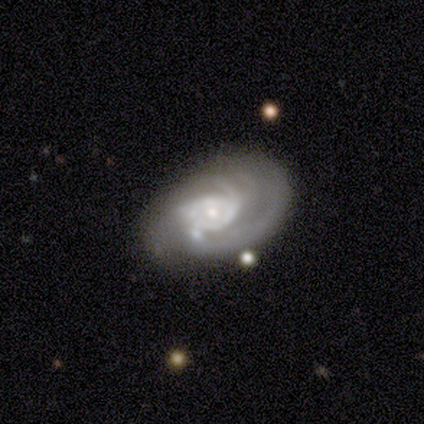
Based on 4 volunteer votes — smooth-or-featured: featured or disk: 100% | smooth: 0% | star or artifact: 0%
  disk-edge-on: no: 75% | yes: 25%
    bar: weak: 67% | no: 33% | strong: 0%
    has-spiral-arms: yes: 100% | no: 0%
      spiral-winding: medium: 67% | tight: 33% | loose: 0%
      spiral-arm-count: 3: 100% | 1: 0% | 2: 0% | 4: 0% | more than 4: 0% | can't tell: 0%
    bulge-size: small: 67% | moderate: 33% | dominant: 0% | large: 0% | none: 0%
  merging: none: 75% | major disturbance: 25% | minor disturbance: 0% | merger: 0%